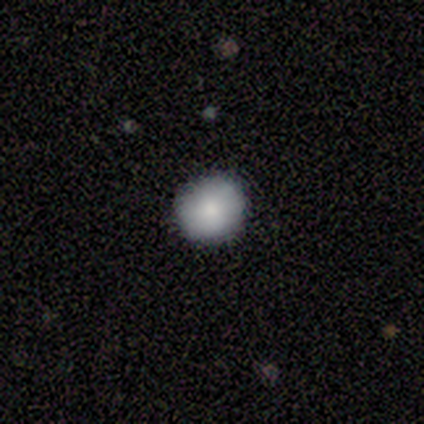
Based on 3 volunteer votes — smooth-or-featured: smooth: 100% | featured or disk: 0% | star or artifact: 0%
  how-rounded: round: 100% | in between: 0% | cigar-shaped: 0%
  merging: none: 100% | minor disturbance: 0% | major disturbance: 0% | merger: 0%